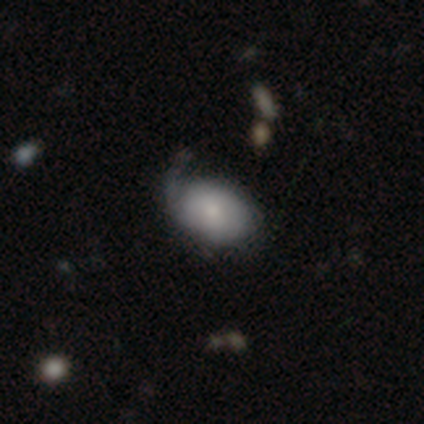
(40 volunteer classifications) A smooth galaxy with no disk features (57%) that is in between round and cigar-shaped (87%).

Vote fractions:
- Smooth or featured? smooth: 57% / featured or disk: 35% / star or artifact: 8%
- How rounded? in between: 87% / round: 13% / cigar-shaped: 0%
- Merging? none: 43% / minor disturbance: 32% / major disturbance: 22% / merger: 3%